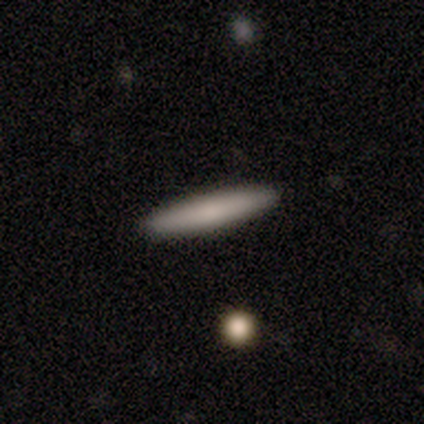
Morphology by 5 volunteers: This is clearly a smooth galaxy (80%). How rounded: clearly cigar-shaped (100%). Merging: clearly none (100%).